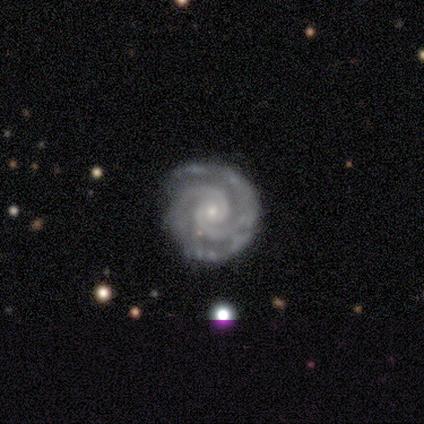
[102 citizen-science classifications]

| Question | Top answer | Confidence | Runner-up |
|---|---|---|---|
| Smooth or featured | featured or disk | 96% | smooth (3%) |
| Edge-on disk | no | 97% | yes (3%) |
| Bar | no | 78% | weak (19%) |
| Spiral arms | yes | 100% | — |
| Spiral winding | tight | 81% | medium (19%) |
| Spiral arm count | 2 | 86% | 3 (6%) |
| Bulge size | small | 80% | moderate (18%) |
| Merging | none | 78% | minor disturbance (19%) |